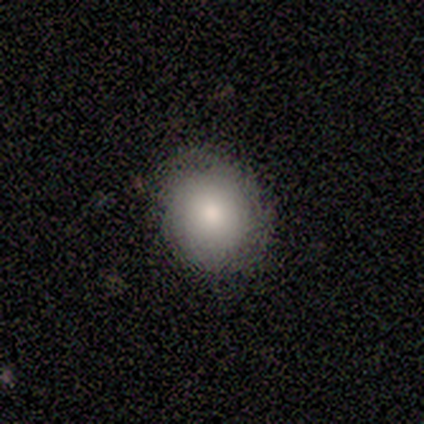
This is clearly a smooth galaxy (85%). How rounded: clearly round (82%). Merging: clearly none (83%).